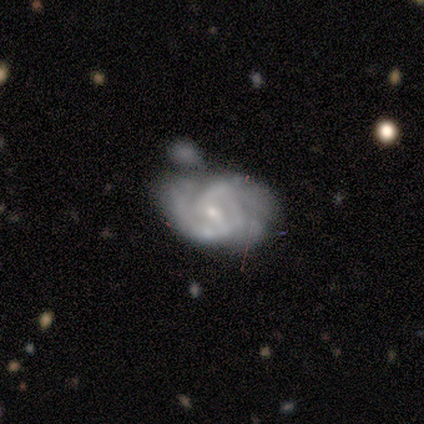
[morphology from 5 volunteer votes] Smooth or featured?
  - featured or disk: 100% *
  - smooth: 0%
  - star or artifact: 0%
Edge-on disk?
  - no: 100% *
  - yes: 0%
Bar?
  - weak: 80% *
  - strong: 20%
  - no: 0%
Spiral arms?
  - yes: 80% *
  - no: 20%
Spiral winding?
  - tight: 50% * (tied)
  - medium: 50% * (tied)
  - loose: 0%
Spiral arm count?
  - can't tell: 50% *
  - 1: 25%
  - 3: 25%
  - 2: 0%
  - 4: 0%
  - more than 4: 0%
Bulge size?
  - small: 80% *
  - moderate: 20%
  - dominant: 0%
  - large: 0%
  - none: 0%
Merging?
  - major disturbance: 40% *
  - none: 20%
  - minor disturbance: 20%
  - merger: 20%